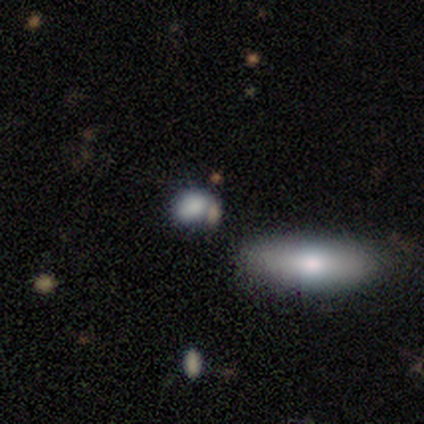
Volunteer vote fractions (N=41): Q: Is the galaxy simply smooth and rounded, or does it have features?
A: smooth — 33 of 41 (80%).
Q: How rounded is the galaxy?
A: in between — 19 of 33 (58%).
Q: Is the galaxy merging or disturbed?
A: none — 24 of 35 (69%).